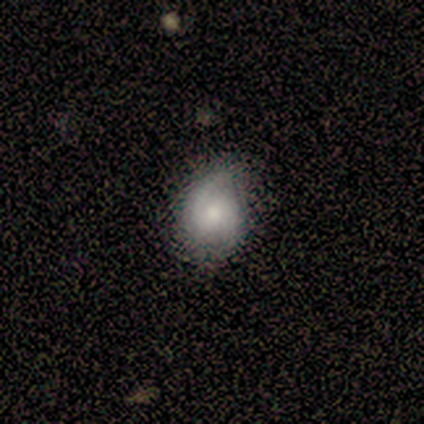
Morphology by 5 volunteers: type=featured or disk (60%); edge-on=no (100%); bar=no (67%); spiral arms=yes (100%); winding=tight (67%); arm count=2 (67%); bulge=moderate (67%); merging=none (60%).